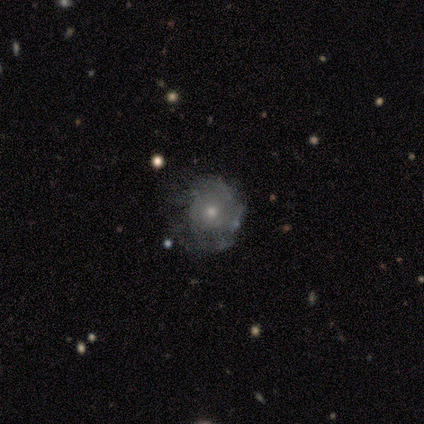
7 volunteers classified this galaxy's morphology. This appears to be a featured or disk galaxy (57%) with no bar (100%), tight (100%) spiral arms (75%) and a small central bulge (75%). Merging: none (71%).